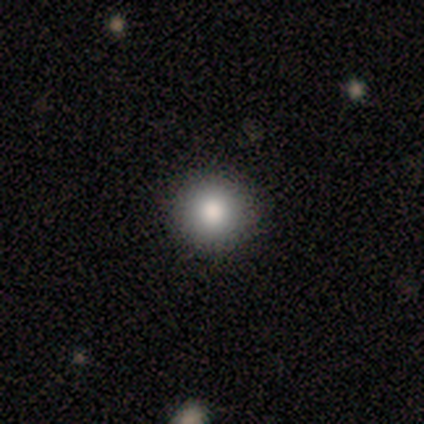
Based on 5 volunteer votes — smooth_or_featured: smooth (p=1.00)
how_rounded: round (p=1.00)
merging: none (p=1.00)